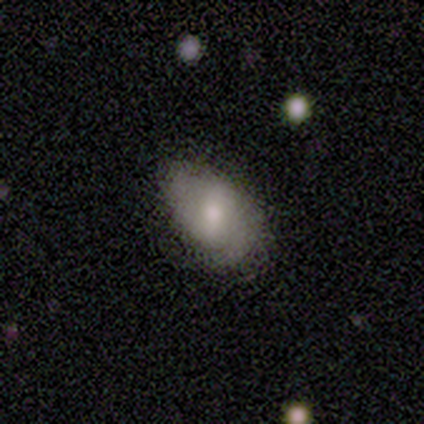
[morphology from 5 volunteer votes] A smooth galaxy with no disk features (40%, tied with featured or disk) that is in between round and cigar-shaped (100%). Merging: none (100%).